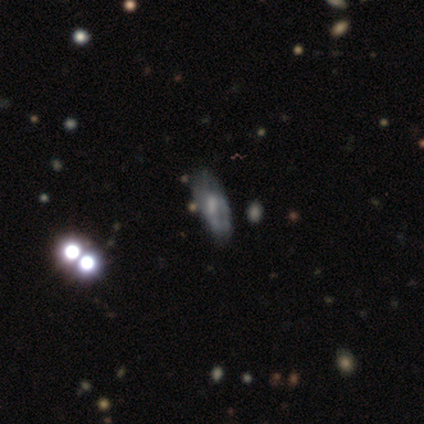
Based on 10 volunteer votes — A featured or disk galaxy (40%) with no bar (100%), tight (100%) spiral arms (50%, tied with no) and a large central bulge (25%, tied with moderate, small and none). Merging: none (57%).